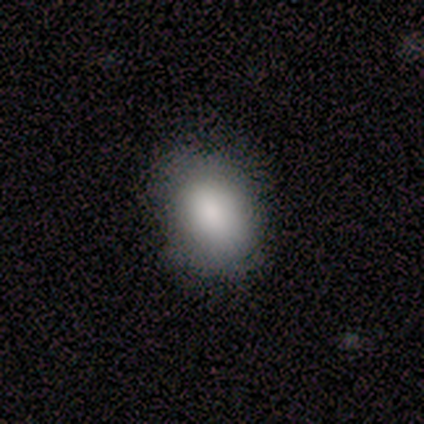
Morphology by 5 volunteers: A smooth galaxy with no disk features (80%) that is in between round and cigar-shaped (75%). Merging: none (100%).